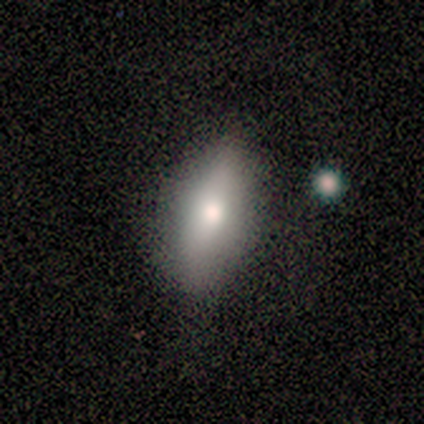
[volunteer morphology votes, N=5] This appears to be a smooth galaxy with no disk features (60%) that is in between round and cigar-shaped (100%). Merging: none (100%).